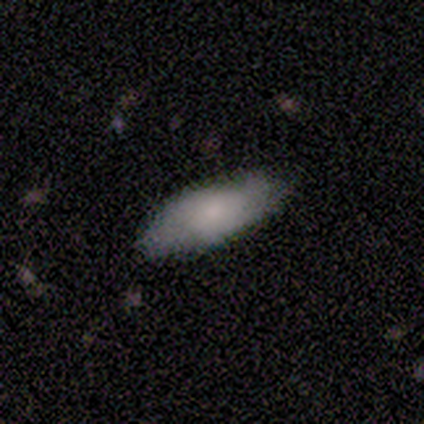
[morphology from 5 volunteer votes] This is likely a featured or disk galaxy (60%). It is likely not viewed edge-on (67%). Bar: possibly weak (50%, tied with no). Spiral arm pattern: possibly yes (50%, tied with no). Spiral arm count: clearly 3 (100%). Spiral winding: clearly medium (100%). Central bulge: possibly small (50%, tied with none). Merging: clearly none (100%).